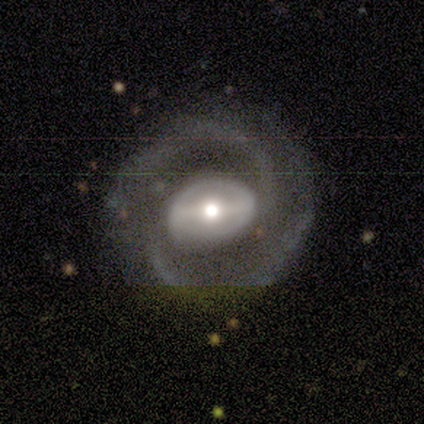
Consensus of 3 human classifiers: Smooth or featured? 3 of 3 (100%) said featured or disk. Edge-on disk? 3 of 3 (100%) said no. Bar? 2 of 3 (67%) said weak. Spiral arms? 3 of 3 (100%) said yes. Spiral winding? 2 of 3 (67%) said medium. Spiral arm count? 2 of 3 (67%) said 2. Bulge size? 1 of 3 (33%, tied with moderate and small) said large. Merging? 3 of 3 (100%) said none.